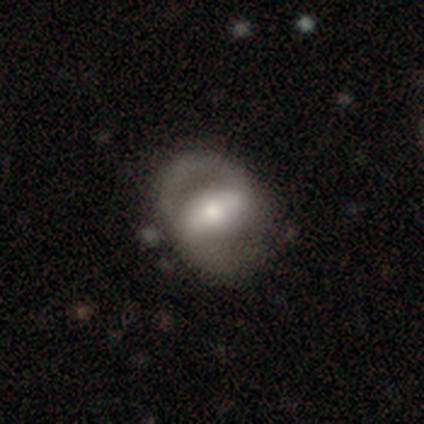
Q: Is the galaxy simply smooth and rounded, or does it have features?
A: featured or disk — 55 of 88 (62%).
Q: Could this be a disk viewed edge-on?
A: no — 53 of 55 (96%).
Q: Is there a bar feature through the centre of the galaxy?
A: strong — 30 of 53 (57%).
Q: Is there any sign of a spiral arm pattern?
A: yes — 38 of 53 (72%).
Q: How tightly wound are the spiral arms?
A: medium — 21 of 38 (55%).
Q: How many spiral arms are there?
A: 2 — 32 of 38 (84%).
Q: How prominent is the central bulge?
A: moderate — 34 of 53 (64%).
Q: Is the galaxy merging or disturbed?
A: none — 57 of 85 (67%).